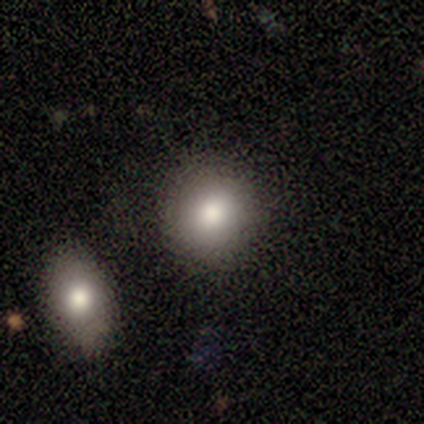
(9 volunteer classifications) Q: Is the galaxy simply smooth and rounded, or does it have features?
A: smooth — 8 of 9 (89%).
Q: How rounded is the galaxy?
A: round — 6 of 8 (75%).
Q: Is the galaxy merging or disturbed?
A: none — 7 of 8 (88%).